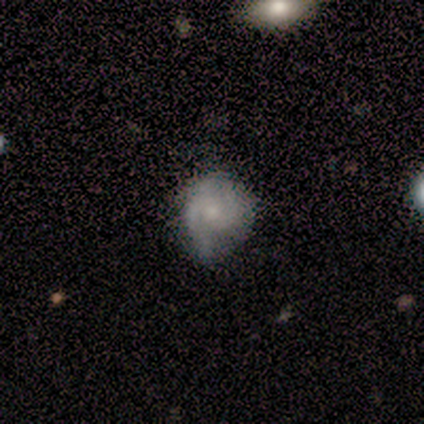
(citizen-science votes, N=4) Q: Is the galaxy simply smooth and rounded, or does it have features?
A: featured or disk — 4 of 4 (100%).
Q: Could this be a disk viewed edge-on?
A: no — 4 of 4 (100%).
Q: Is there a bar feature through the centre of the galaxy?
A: no — 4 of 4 (100%).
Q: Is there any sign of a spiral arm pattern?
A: yes — 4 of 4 (100%).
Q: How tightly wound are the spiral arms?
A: tight — 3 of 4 (75%).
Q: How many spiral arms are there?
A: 2 — 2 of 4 (50%).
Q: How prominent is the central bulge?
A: small — 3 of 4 (75%).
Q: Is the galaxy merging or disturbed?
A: minor disturbance — 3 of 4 (75%).